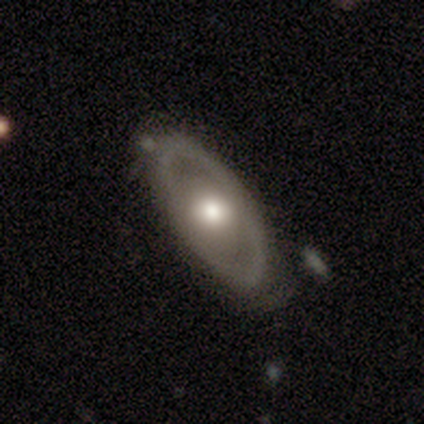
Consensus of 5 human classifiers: Smooth or featured?
  - smooth: 80% *
  - featured or disk: 20%
  - star or artifact: 0%
How rounded?
  - in between: 75% *
  - cigar-shaped: 25%
  - round: 0%
Merging?
  - none: 80% *
  - minor disturbance: 20%
  - major disturbance: 0%
  - merger: 0%